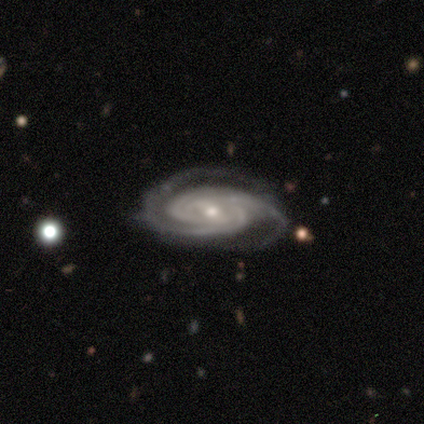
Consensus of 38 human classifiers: Overall: featured or disk (95%). Edge-on disk: no (97%). Bar: weak (51%; strong 29%). Spiral arms: yes (100%). Spiral arm count: 2 (46%; 3 29%). Spiral winding: tight (86%). Bulge size: small (54%; moderate 43%). Merging: none (75%).